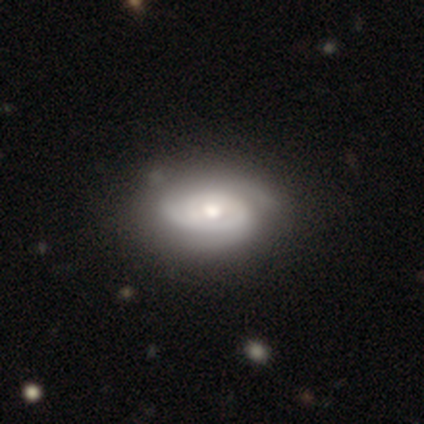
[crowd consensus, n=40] smooth-or-featured: featured or disk: 88% | smooth: 10% | star or artifact: 2%
  disk-edge-on: no: 97% | yes: 3%
    bar: no: 62% | weak: 32% | strong: 6%
    has-spiral-arms: yes: 97% | no: 3%
      spiral-winding: tight: 79% | medium: 18% | loose: 3%
      spiral-arm-count: 2: 39% | can't tell: 36% | 3: 15% | 1: 9% | 4: 0% | more than 4: 0%
    bulge-size: moderate: 68% | large: 21% | small: 9% | dominant: 3% | none: 0%
  merging: none: 44% | minor disturbance: 18% | major disturbance: 3% | merger: 3%